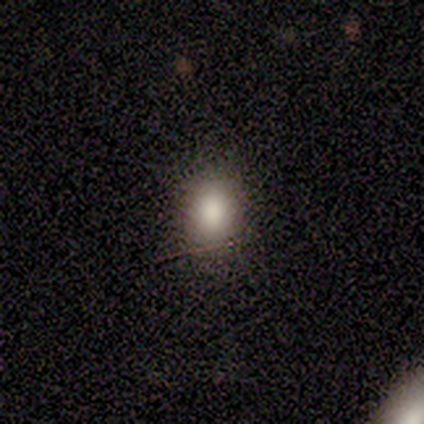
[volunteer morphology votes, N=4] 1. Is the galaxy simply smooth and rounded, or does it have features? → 100% smooth, 0% featured or disk, 0% star or artifact.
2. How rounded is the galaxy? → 75% in between, 25% round, 0% cigar-shaped.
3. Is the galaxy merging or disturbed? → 100% none, 0% minor disturbance, 0% major disturbance, 0% merger.